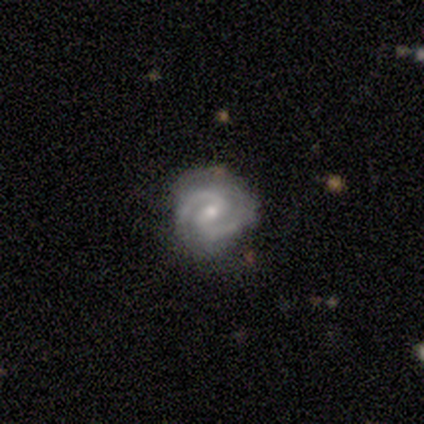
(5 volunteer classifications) smooth_or_featured: featured or disk (p=1.00)
disk_edge_on: no (p=1.00)
bar: weak (p=0.60) [alt: strong p=0.20]
has_spiral_arms: yes (p=1.00)
spiral_winding: tight (p=0.60) [alt: medium p=0.40]
spiral_arm_count: 2 (p=1.00)
bulge_size: small (p=0.60) [alt: moderate p=0.40]
merging: none (p=1.00)